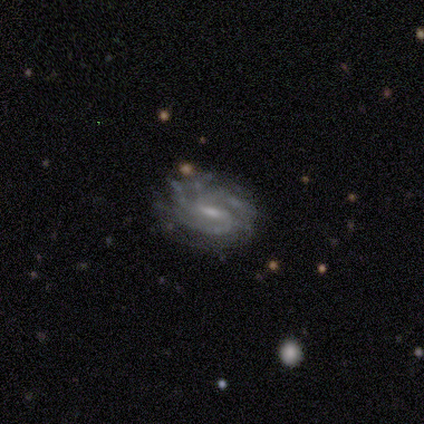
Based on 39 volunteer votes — This appears to be a featured or disk galaxy (90%) with a weak bar (65%), 3 (30%) tight (57%) spiral arms (88%) and a moderate central bulge (38%). Merging: none (58%).